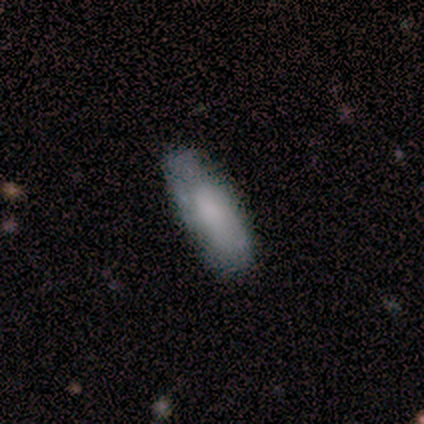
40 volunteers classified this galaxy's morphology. This appears to be a smooth galaxy with no disk features (52%) that is in between round and cigar-shaped (76%). Merging: none (65%).